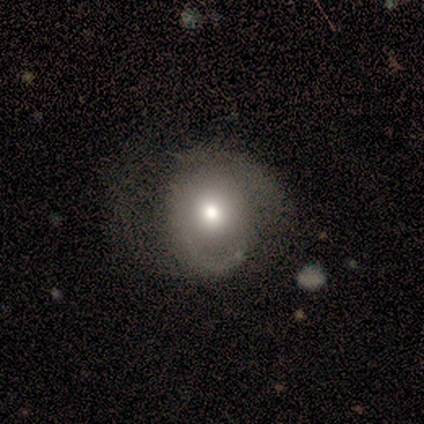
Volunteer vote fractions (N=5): smooth_or_featured: smooth (p=0.60) [alt: featured or disk p=0.40]
how_rounded: round (p=1.00)
merging: none (p=0.60) [alt: minor disturbance p=0.20]